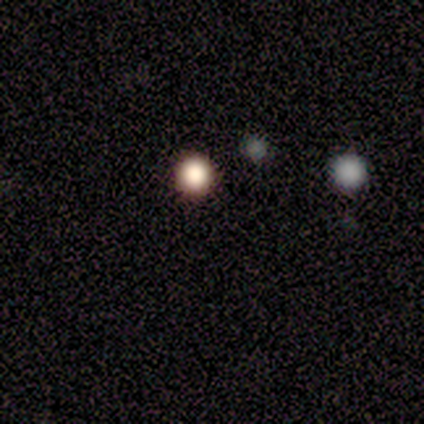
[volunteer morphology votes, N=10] Smooth or featured? 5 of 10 (50%) said smooth. How rounded? 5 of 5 (100%) said round. Merging? 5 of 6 (83%) said none.